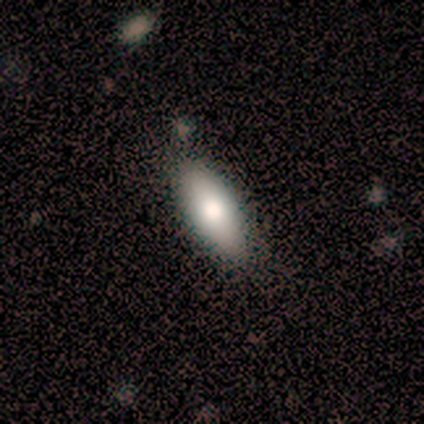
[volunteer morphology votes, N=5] This is clearly a smooth galaxy (100%). How rounded: clearly in between (100%). Merging: clearly none (80%).